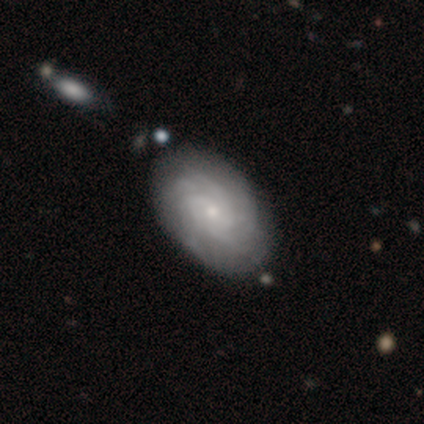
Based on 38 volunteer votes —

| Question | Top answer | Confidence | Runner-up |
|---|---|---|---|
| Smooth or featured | featured or disk | 79% | smooth (16%) |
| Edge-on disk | no | 97% | yes (3%) |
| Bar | no | 76% | weak (24%) |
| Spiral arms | yes | 97% | no (3%) |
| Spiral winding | tight | 71% | medium (29%) |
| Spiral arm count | can't tell | 39% | 3 (18%) |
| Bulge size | small | 72% | moderate (24%) |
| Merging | none | 58% | minor disturbance (11%) |